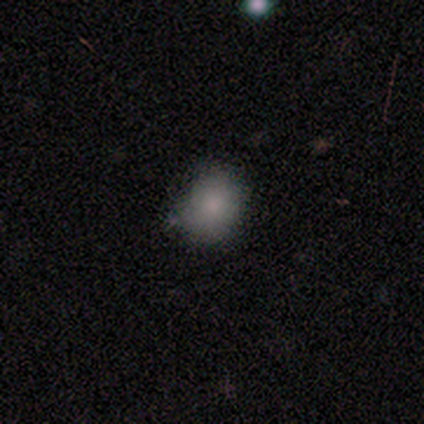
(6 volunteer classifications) This appears to be a smooth galaxy with no disk features (83%) that is round (80%). Merging: none (83%).